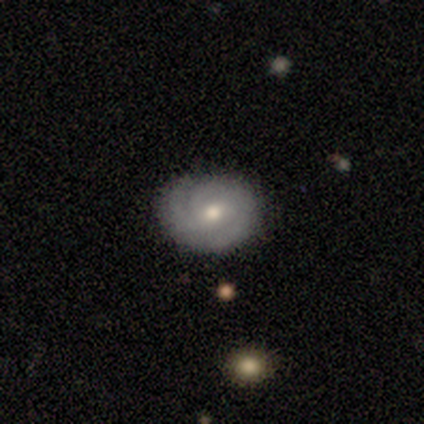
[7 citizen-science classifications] Smooth or featured? 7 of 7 (100%) said featured or disk. Edge-on disk? 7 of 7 (100%) said no. Bar? 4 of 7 (57%) said weak. Spiral arms? 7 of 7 (100%) said yes. Spiral winding? 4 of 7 (57%) said tight. Spiral arm count? 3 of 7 (43%, tied with can't tell) said 2. Bulge size? 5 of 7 (71%) said moderate. Merging? 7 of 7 (100%) said none.